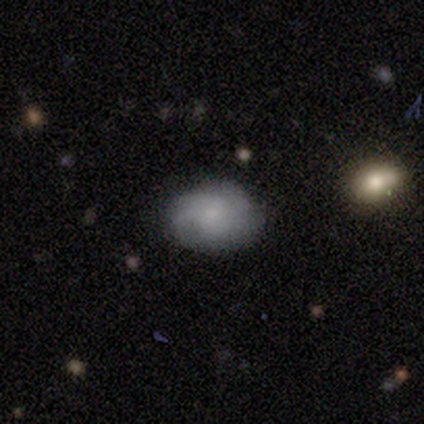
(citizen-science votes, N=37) Overall: smooth (57%; featured or disk 32%). How rounded: in between (81%). Merging: none (76%).